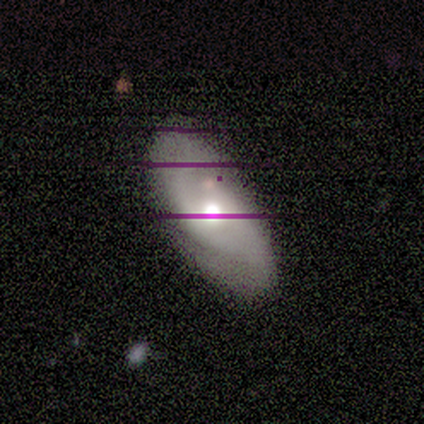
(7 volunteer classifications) A featured or disk galaxy (86%) with a weak bar (50%, tied with no), 2 (75%) medium (50%) spiral arms (100%) and a moderate central bulge (75%). Merging: none (67%).